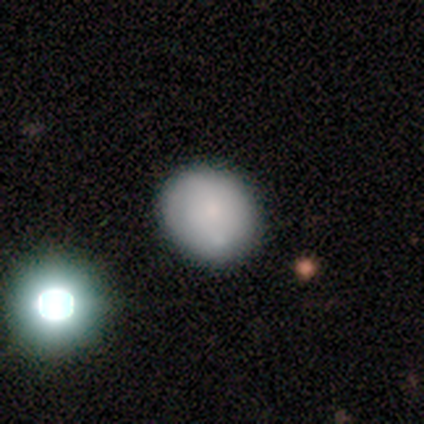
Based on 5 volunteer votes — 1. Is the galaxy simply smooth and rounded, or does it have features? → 100% smooth, 0% featured or disk, 0% star or artifact.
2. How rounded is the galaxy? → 80% round, 20% in between, 0% cigar-shaped.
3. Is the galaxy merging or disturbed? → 80% none, 20% minor disturbance, 0% major disturbance, 0% merger.